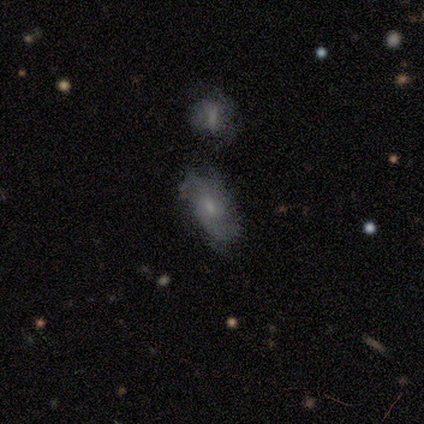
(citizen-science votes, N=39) Smooth or featured?
  - featured or disk: 59% *
  - smooth: 38%
  - star or artifact: 3%
Edge-on disk?
  - no: 96% *
  - yes: 4%
Bar?
  - no: 64% *
  - weak: 36%
  - strong: 0%
Spiral arms?
  - yes: 77% *
  - no: 23%
Spiral winding?
  - medium: 47% *
  - loose: 41%
  - tight: 12%
Spiral arm count?
  - 2: 47% *
  - can't tell: 35%
  - 1: 12%
  - 3: 6%
  - 4: 0%
  - more than 4: 0%
Bulge size?
  - small: 64% *
  - moderate: 32%
  - none: 5%
  - dominant: 0%
  - large: 0%
Merging?
  - none: 58% *
  - minor disturbance: 21%
  - merger: 21%
  - major disturbance: 0%